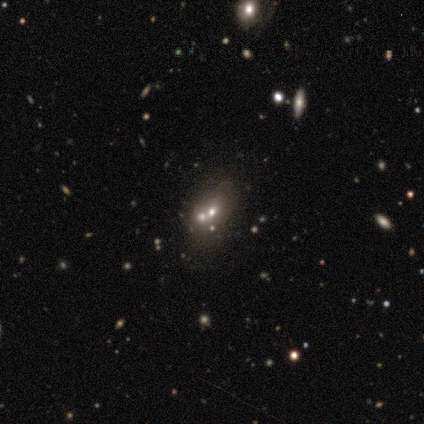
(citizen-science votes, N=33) smooth 39%, featured or disk 30%, star or artifact 30%. Down the decision tree: how rounded — in between (54%); merging — merger (61%).